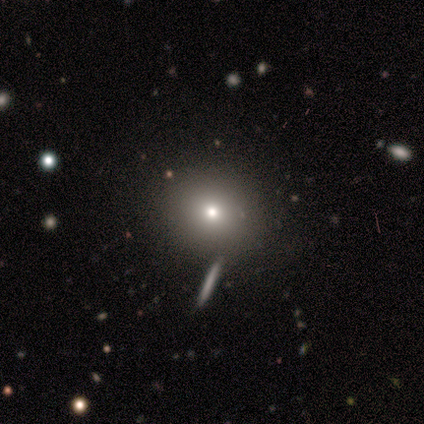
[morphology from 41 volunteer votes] Smooth or featured? 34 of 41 (83%) said smooth. How rounded? 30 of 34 (88%) said round. Merging? 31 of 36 (86%) said none.